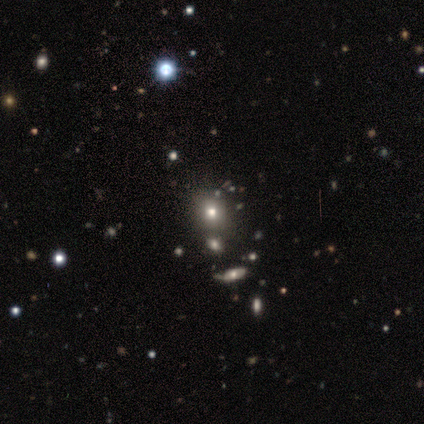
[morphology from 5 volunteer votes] Volunteers were most divided on "how rounded": round: 75%, in between: 25%, cigar-shaped: 0%. More confident: merging — none (100%); smooth or featured — smooth (80%).